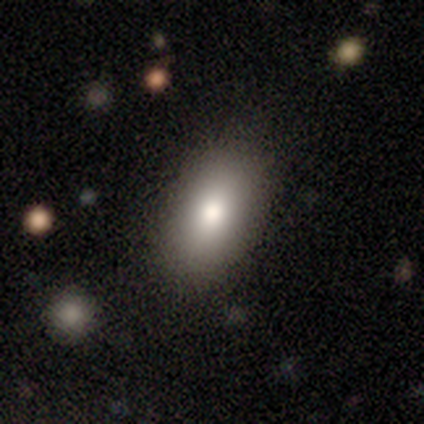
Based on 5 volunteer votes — Q: Smooth or featured?
A: smooth (80%); runner-up: featured or disk (20%)
Q: How rounded?
A: in between (100%)
Q: Merging?
A: none (100%)